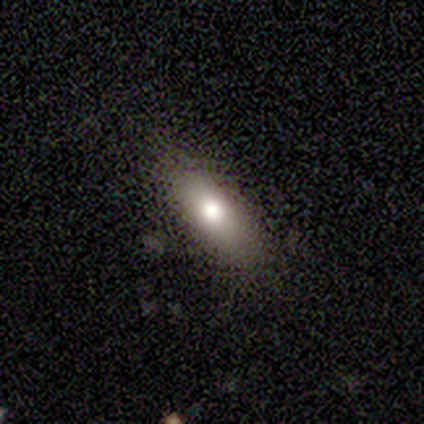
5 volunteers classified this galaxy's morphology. type=smooth (80%); roundness=in between (50%, tied with cigar-shaped); merging=none (100%).